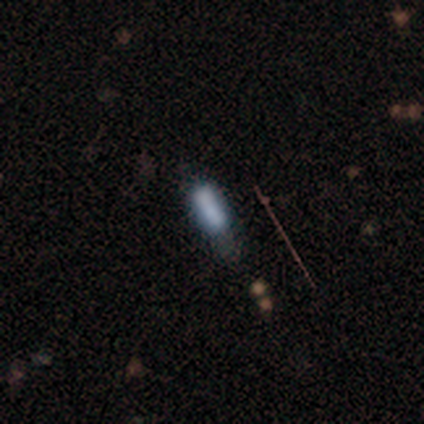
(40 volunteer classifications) smooth_or_featured: smooth (p=0.65) [alt: featured or disk p=0.25]
how_rounded: cigar-shaped (p=0.58) [alt: in between p=0.42]
merging: none (p=0.50) [alt: minor disturbance p=0.28]